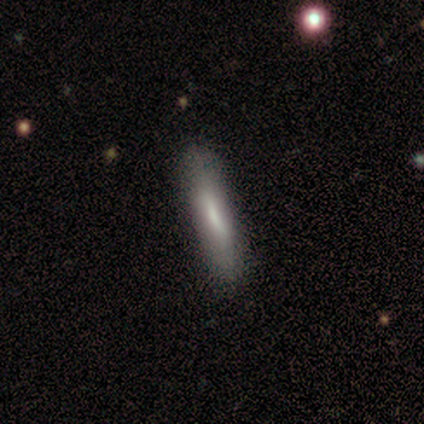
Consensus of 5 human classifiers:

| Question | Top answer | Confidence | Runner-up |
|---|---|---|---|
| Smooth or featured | smooth | 60% | featured or disk (40%) |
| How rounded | cigar-shaped | 100% | — |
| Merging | none | 100% | — |